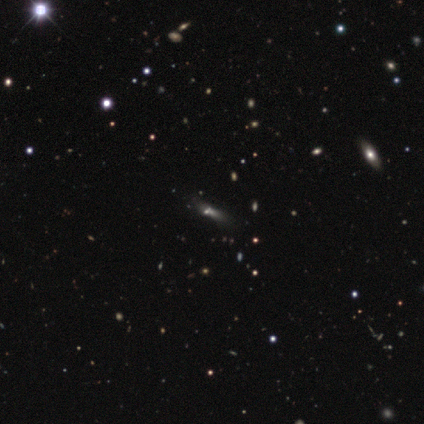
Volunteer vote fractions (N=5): A featured or disk galaxy (40%, tied with star or artifact) with no bar (100%), no spiral arms (100%) and a small central bulge (50%, tied with none).

Vote fractions:
- Smooth or featured? featured or disk: 40% (tied) / star or artifact: 40% (tied) / smooth: 20%
- Edge-on disk? no: 100% / yes: 0%
- Bar? no: 100% / strong: 0% / weak: 0%
- Spiral arms? no: 100% / yes: 0%
- Bulge size? small: 50% (tied) / none: 50% (tied) / dominant: 0% / large: 0% / moderate: 0%
- Merging? none: 67% / major disturbance: 33% / minor disturbance: 0% / merger: 0%